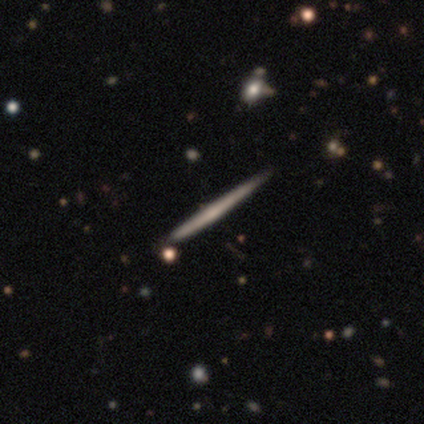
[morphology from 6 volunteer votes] A featured or disk galaxy (83%) viewed edge-on (100%) with no central bulge (80%).

Vote fractions:
- Smooth or featured? featured or disk: 83% / smooth: 17% / star or artifact: 0%
- Edge-on disk? yes: 100% / no: 0%
- Edge-on bulge? none: 80% / rounded: 20% / boxy: 0%
- Merging? none: 67% / minor disturbance: 33% / major disturbance: 0% / merger: 0%